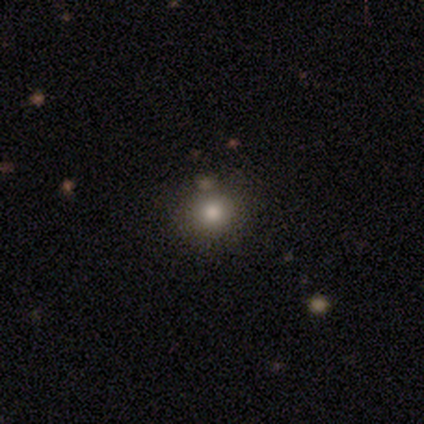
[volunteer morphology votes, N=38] smooth 82%, star or artifact 16%, featured or disk 3%. Down the decision tree: how rounded — round (87%); merging — none (88%).